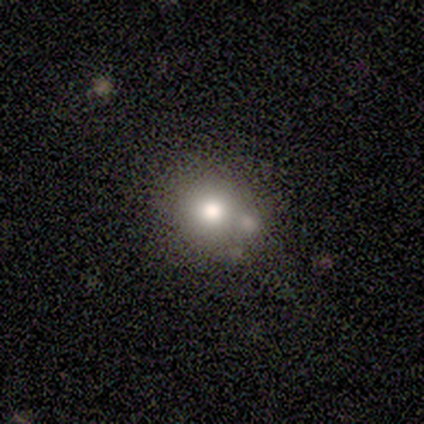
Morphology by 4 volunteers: smooth-or-featured: smooth: 100% | featured or disk: 0% | star or artifact: 0%
  how-rounded: round: 75% | in between: 25% | cigar-shaped: 0%
  merging: none: 100% | minor disturbance: 0% | major disturbance: 0% | merger: 0%